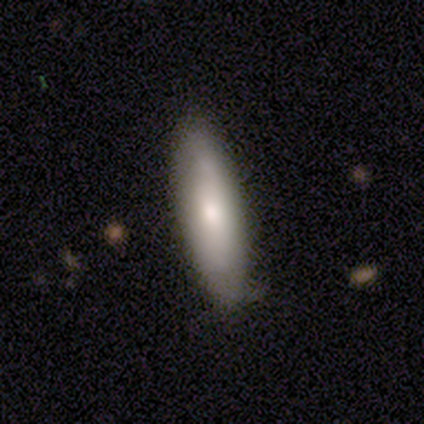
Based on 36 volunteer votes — Morphology: type=smooth (64%); roundness=cigar-shaped (57%); merging=none (68%).